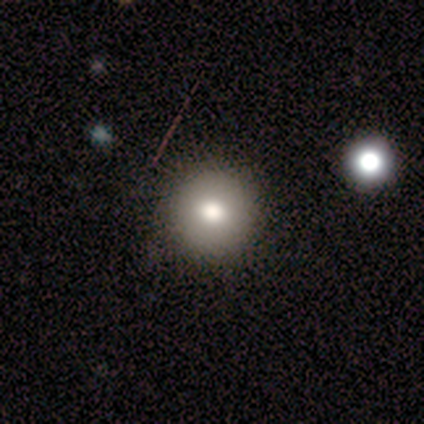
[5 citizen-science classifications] This is clearly a smooth galaxy (100%). How rounded: clearly round (100%). Merging: clearly none (100%).